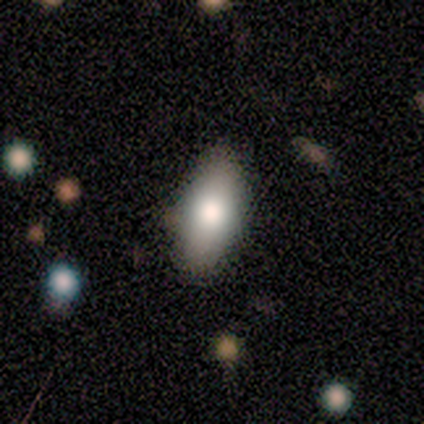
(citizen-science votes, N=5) Smooth or featured? smooth (80%)
How rounded? in between (100%)
Merging? none (100%)